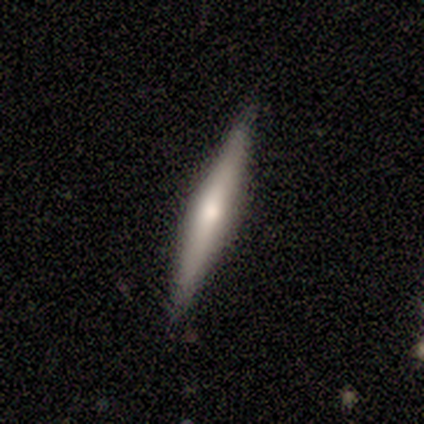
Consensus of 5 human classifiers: A featured or disk galaxy (80%) viewed edge-on (100%) with a rounded central bulge (75%). Merging: none (100%).